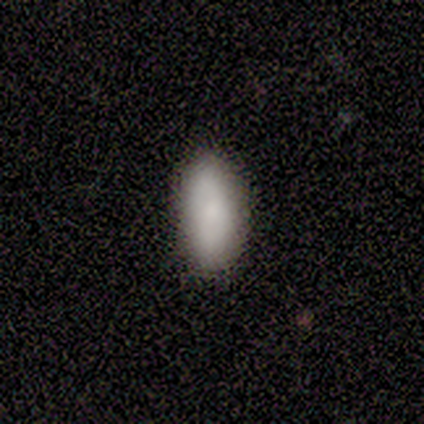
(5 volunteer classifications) smooth_or_featured: smooth (p=1.00)
how_rounded: in between (p=1.00)
merging: none (p=0.80) [alt: major disturbance p=0.20]